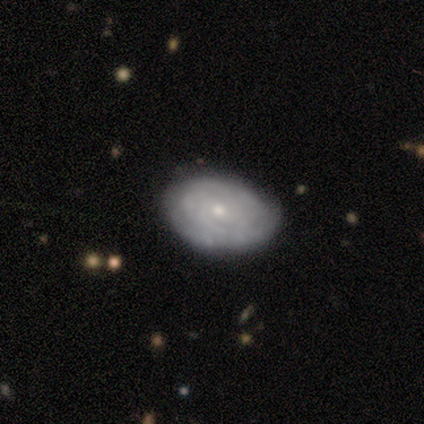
Smooth or featured: featured or disk — 60% (smooth — 40%)
Edge-on disk: no — 100%
Bar: no — 67% (weak — 33%)
Spiral arms: yes — 100%
Spiral winding: tight — 100%
Spiral arm count: 3 — 33% (tied with 4 — 33%; can't tell — 33%)
Bulge size: small — 67% (moderate — 33%)
Merging: none — 100%